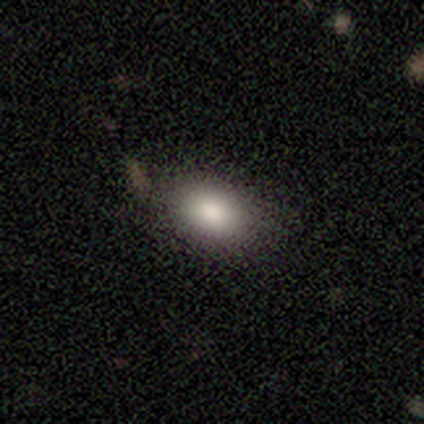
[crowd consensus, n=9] smooth 89%, star or artifact 11%, featured or disk 0%. Down the decision tree: how rounded — in between (100%); merging — none (88%).